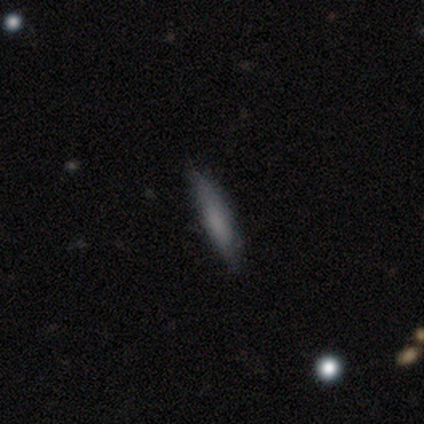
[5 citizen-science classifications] Overall: smooth (100%). How rounded: cigar-shaped (100%). Merging: none (100%).